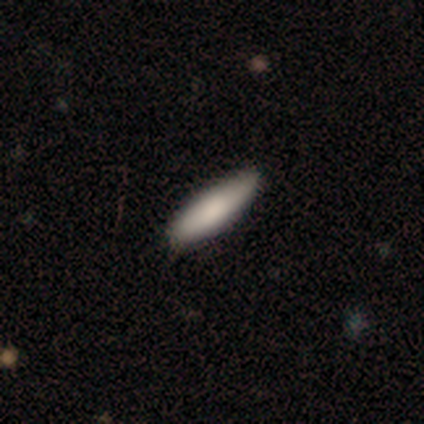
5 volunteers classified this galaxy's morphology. Smooth or featured? 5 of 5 (100%) said smooth. How rounded? 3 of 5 (60%) said cigar-shaped. Merging? 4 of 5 (80%) said none.